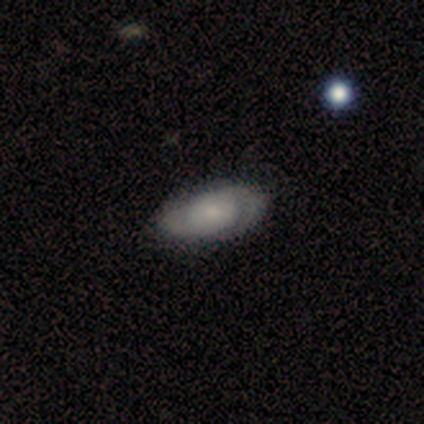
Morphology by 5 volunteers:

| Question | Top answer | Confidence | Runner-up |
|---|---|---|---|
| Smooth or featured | featured or disk | 60% | smooth (40%) |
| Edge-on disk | no | 100% | — |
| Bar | no | 100% | — |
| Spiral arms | yes | 100% | — |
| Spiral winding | tight | 33% | tied: medium (33%), loose (33%) |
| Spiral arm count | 2 | 67% | 3 (33%) |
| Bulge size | small | 100% | — |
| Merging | none | 80% | minor disturbance (20%) |